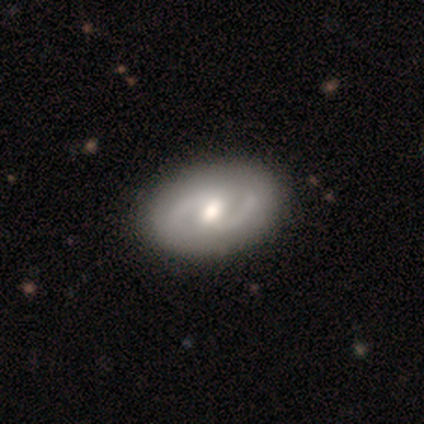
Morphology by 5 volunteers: Smooth or featured: featured or disk — 80% (smooth — 20%)
Edge-on disk: no — 100%
Bar: weak — 50% (tied with no — 50%)
Spiral arms: yes — 100%
Spiral winding: medium — 75% (loose — 25%)
Spiral arm count: 2 — 100%
Bulge size: moderate — 75% (large — 25%)
Merging: none — 80% (minor disturbance — 20%)